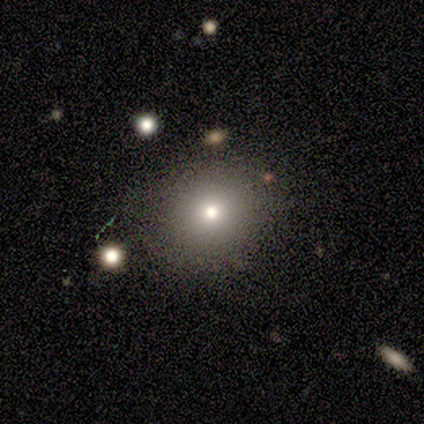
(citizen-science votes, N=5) Smooth or featured: smooth — 60% (featured or disk — 20%)
How rounded: round — 100%
Merging: none — 100%